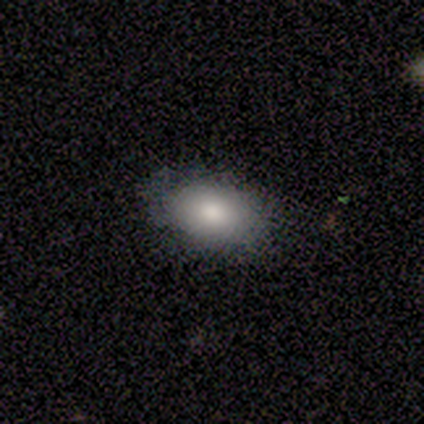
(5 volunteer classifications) This appears to be a smooth galaxy with no disk features (80%) that is in between round and cigar-shaped (75%). Merging: none (50%, tied with minor disturbance).